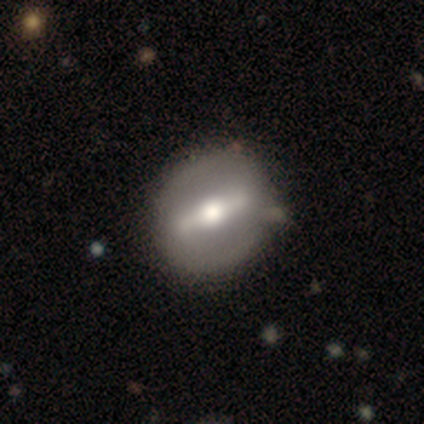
featured or disk 80%, smooth 20%, star or artifact 0%. Down the decision tree: edge-on disk — yes (50%, tied with no); edge-on bulge — rounded (100%); merging — none (80%).